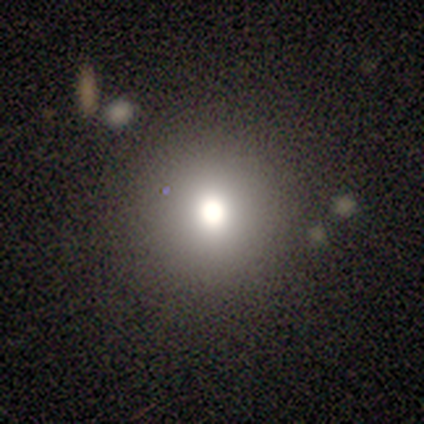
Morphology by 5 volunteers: Volunteers were most divided on "smooth or featured" (2-way tie): featured or disk: 40%, star or artifact: 40%, smooth: 20%. More confident: edge-on disk — no (100%); bar — no (100%); spiral arms — no (100%); bulge size — dominant (100%); merging — none (100%).